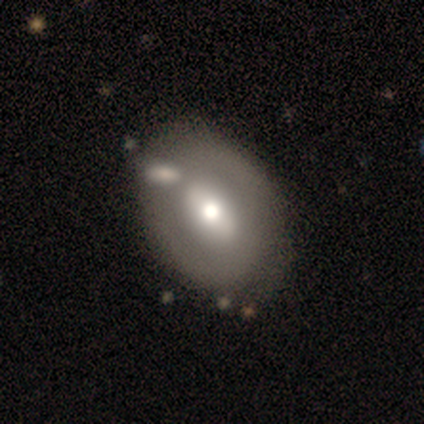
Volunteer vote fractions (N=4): A featured or disk galaxy (75%) with no bar (67%), no spiral arms (100%) and a moderate central bulge (67%).

Vote fractions:
- Smooth or featured? featured or disk: 75% / star or artifact: 25% / smooth: 0%
- Edge-on disk? no: 100% / yes: 0%
- Bar? no: 67% / strong: 33% / weak: 0%
- Spiral arms? no: 100% / yes: 0%
- Bulge size? moderate: 67% / small: 33% / dominant: 0% / large: 0% / none: 0%
- Merging? none: 67% / merger: 33% / minor disturbance: 0% / major disturbance: 0%